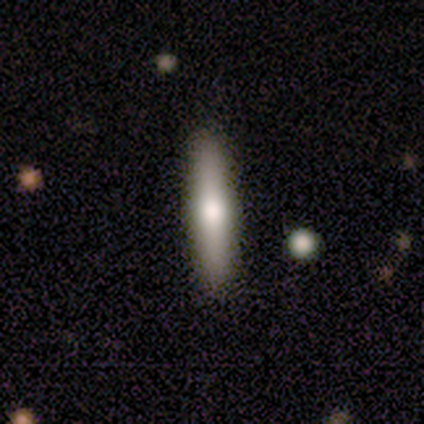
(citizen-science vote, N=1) smooth-or-featured: smooth: 100% | featured or disk: 0% | star or artifact: 0%
  how-rounded: cigar-shaped: 100% | round: 0% | in between: 0%
  merging: none: 100% | minor disturbance: 0% | major disturbance: 0% | merger: 0%